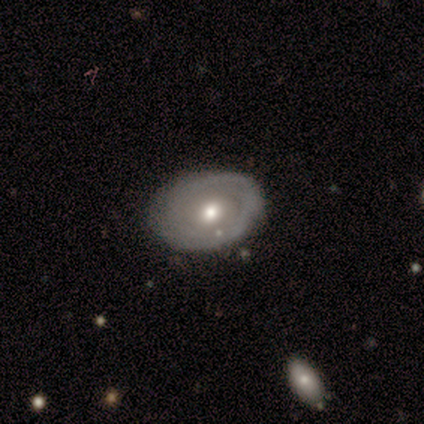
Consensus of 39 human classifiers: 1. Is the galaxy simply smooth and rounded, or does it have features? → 67% featured or disk, 28% smooth, 5% star or artifact.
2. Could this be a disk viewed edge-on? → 96% no, 4% yes.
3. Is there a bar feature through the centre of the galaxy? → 80% no, 20% weak, 0% strong.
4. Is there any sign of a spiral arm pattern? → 52% no, 48% yes.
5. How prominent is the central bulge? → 80% moderate, 12% small, 4% dominant, 4% large, 0% none.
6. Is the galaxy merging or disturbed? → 86% none, 8% minor disturbance, 5% merger, 0% major disturbance.